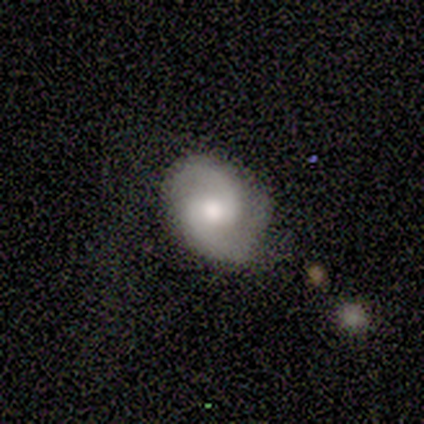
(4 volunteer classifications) A featured or disk galaxy (100%) with no bar (75%), 2 (100%) tight (50%, tied with medium) spiral arms (100%) and a large central bulge (50%). Merging: none (75%).